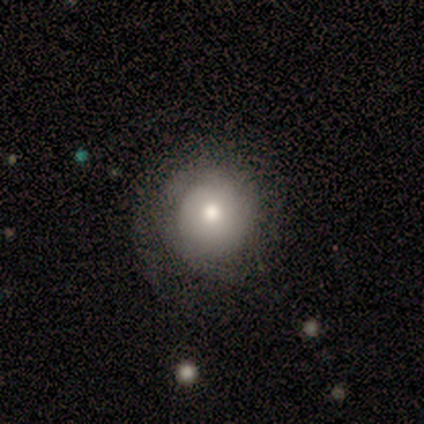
Q: Smooth or featured?
A: smooth (100%)
Q: How rounded?
A: round (100%)
Q: Merging?
A: none (50%); runner-up: minor disturbance (25%)